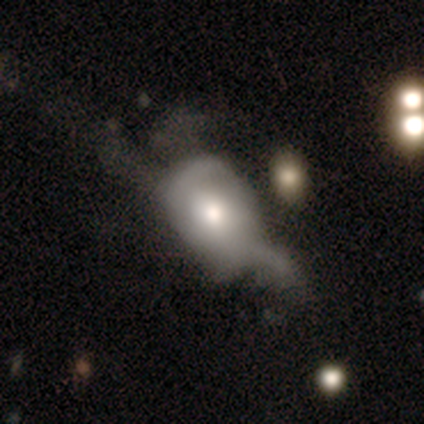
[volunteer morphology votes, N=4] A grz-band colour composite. It shows a smooth galaxy with no disk features (50%, tied with featured or disk) that is round (50%, tied with in between). Merging: major disturbance (50%).